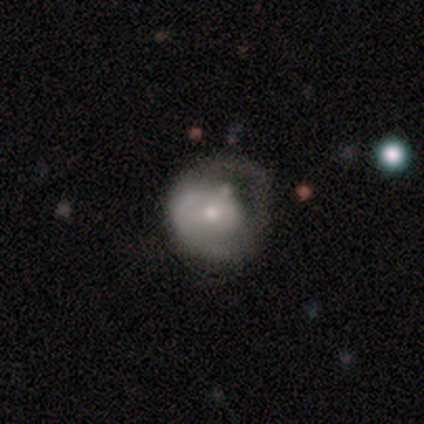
Smooth or featured: featured or disk — 51% (smooth — 41%)
Edge-on disk: no — 95% (yes — 5%)
Bar: no — 63% (weak — 32%)
Spiral arms: no — 63% (yes — 37%)
Bulge size: moderate — 53% (small — 42%)
Merging: major disturbance — 42% (minor disturbance — 28%)